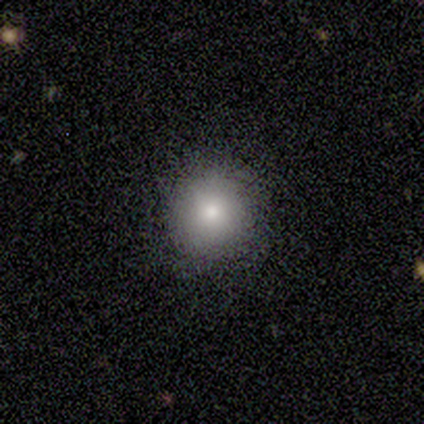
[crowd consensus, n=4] A smooth galaxy with no disk features (75%) that is round (100%). Merging: none (100%).